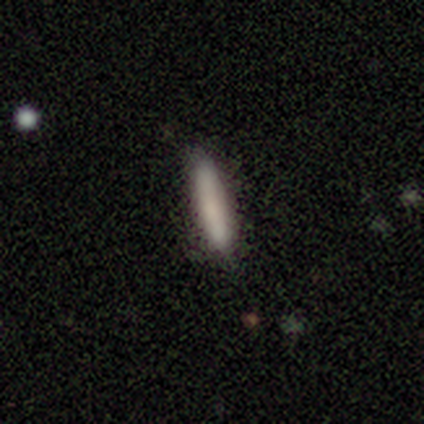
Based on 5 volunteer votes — Smooth or featured: smooth — 80% (featured or disk — 20%)
How rounded: cigar-shaped — 100%
Merging: none — 100%